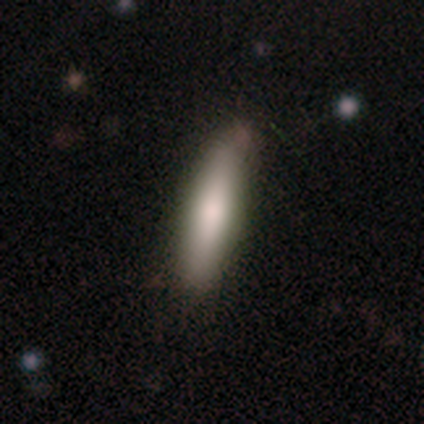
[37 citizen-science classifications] smooth 78%, featured or disk 19%, star or artifact 3%. Down the decision tree: how rounded — cigar-shaped (83%); merging — none (78%).